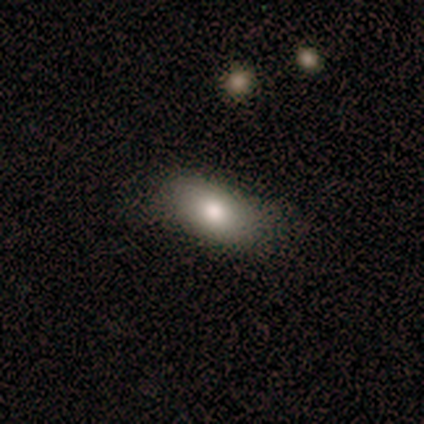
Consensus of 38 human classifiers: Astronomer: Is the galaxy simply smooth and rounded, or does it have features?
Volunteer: smooth — 74%.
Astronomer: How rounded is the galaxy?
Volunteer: in between — 96%.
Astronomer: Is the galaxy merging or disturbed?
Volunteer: none — 74%.